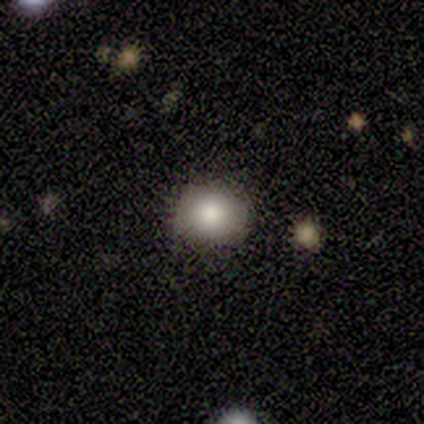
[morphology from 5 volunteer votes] Overall: smooth (100%). How rounded: round (60%; in between 40%). Merging: none (80%).